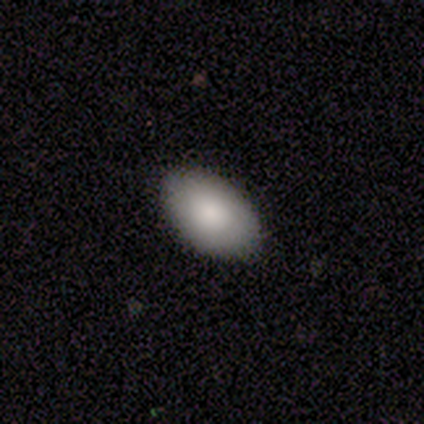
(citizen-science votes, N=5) smooth_or_featured: smooth (p=1.00)
how_rounded: in between (p=1.00)
merging: none (p=1.00)